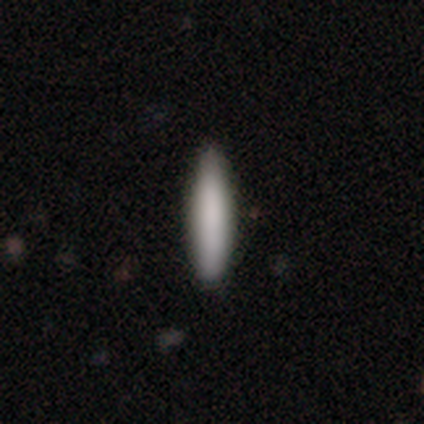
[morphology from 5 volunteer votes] smooth_or_featured: smooth (p=0.80) [alt: featured or disk p=0.20]
how_rounded: cigar-shaped (p=1.00)
merging: none (p=0.80) [alt: minor disturbance p=0.20]